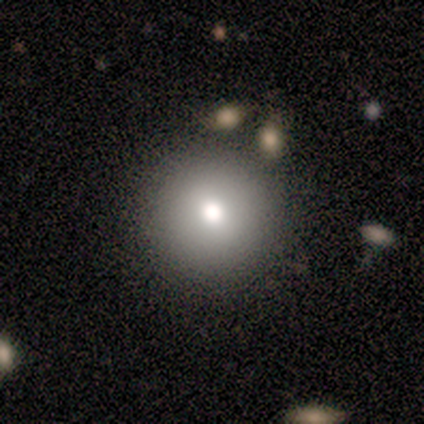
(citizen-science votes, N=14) smooth-or-featured: smooth: 79% | star or artifact: 21% | featured or disk: 0%
  how-rounded: round: 100% | in between: 0% | cigar-shaped: 0%
  merging: none: 100% | minor disturbance: 0% | major disturbance: 0% | merger: 0%